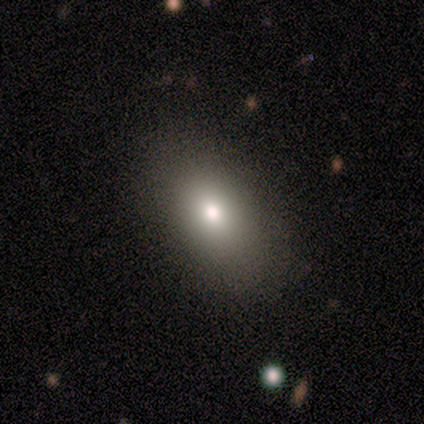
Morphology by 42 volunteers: Smooth or featured: smooth — 81% (featured or disk — 19%)
How rounded: in between — 97% (round — 3%)
Merging: none — 83% (minor disturbance — 14%)